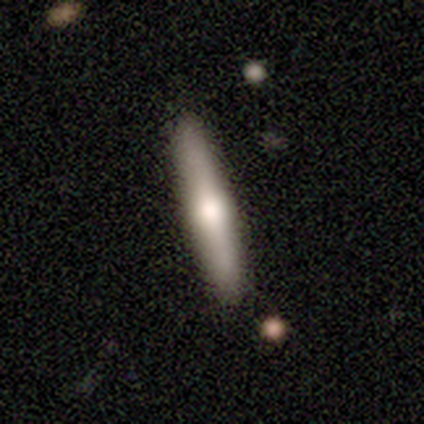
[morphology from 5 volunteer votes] Volunteers were most divided on "smooth or featured": featured or disk: 80%, smooth: 20%, star or artifact: 0%. More confident: edge-on disk — yes (100%); edge-on bulge — rounded (100%); merging — none (80%).